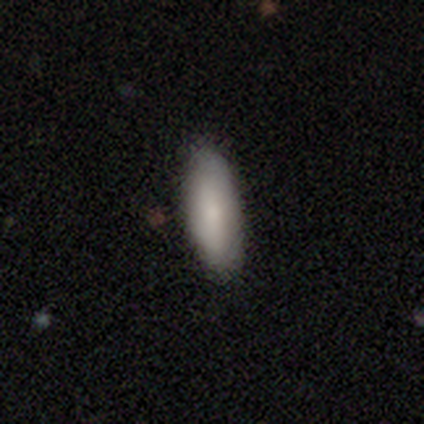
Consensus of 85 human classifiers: Smooth or featured: smooth — 81% (featured or disk — 14%)
How rounded: in between — 65% (cigar-shaped — 35%)
Merging: none — 88% (minor disturbance — 10%)